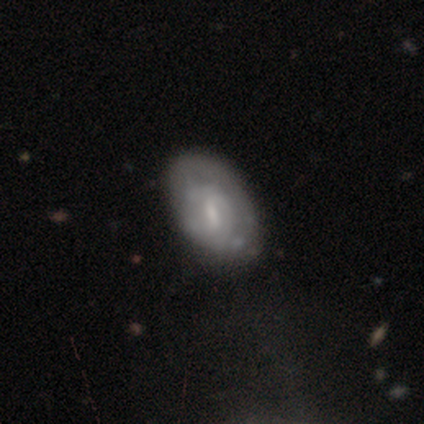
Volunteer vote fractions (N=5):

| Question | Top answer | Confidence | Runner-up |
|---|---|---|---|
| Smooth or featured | smooth | 60% | featured or disk (40%) |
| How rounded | in between | 100% | — |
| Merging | none | 100% | — |